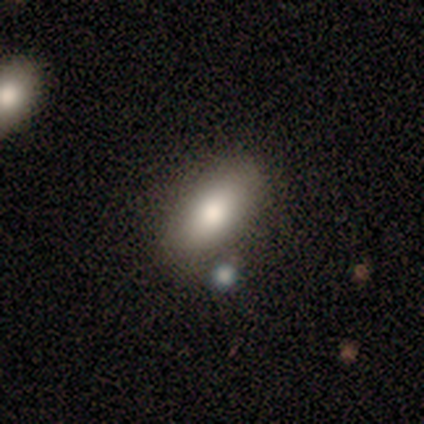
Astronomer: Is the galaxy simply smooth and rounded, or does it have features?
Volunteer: smooth — 78%.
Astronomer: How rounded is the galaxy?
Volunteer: in between — 86%.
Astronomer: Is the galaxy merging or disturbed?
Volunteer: none — 62%.